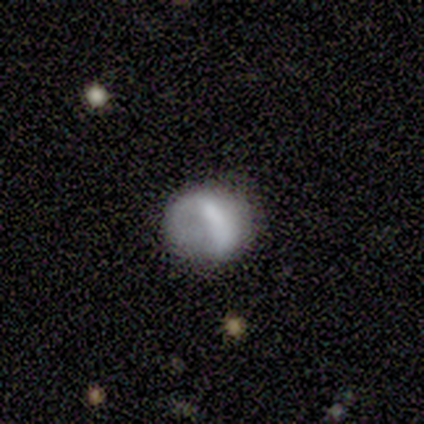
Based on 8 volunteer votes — Morphology: type=featured or disk (75%); edge-on=no (100%); bar=no (67%); spiral arms=no (83%); bulge=large (33%, tied with moderate); merging=none (43%).